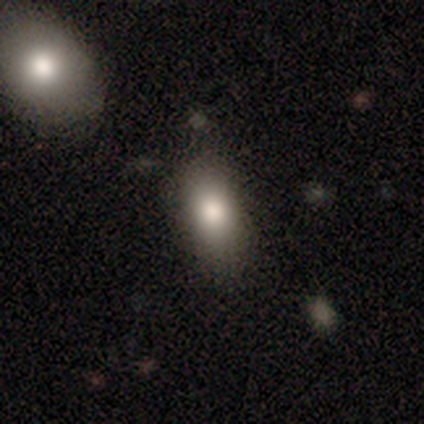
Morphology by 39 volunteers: Overall: smooth (77%). How rounded: in between (83%). Merging: none (74%).